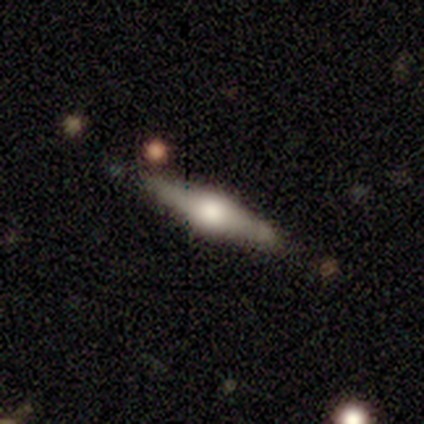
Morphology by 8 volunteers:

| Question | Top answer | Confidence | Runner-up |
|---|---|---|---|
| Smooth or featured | featured or disk | 88% | smooth (12%) |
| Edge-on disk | yes | 100% | — |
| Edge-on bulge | rounded | 100% | — |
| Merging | none | 100% | — |